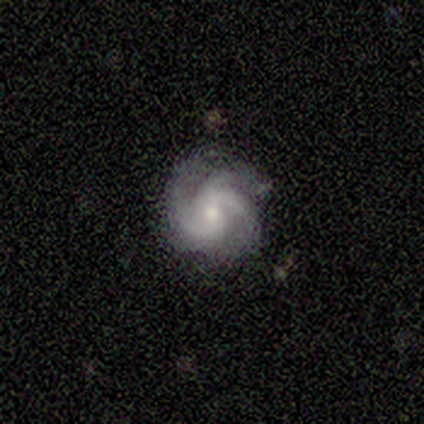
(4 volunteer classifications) featured or disk 100%, smooth 0%, star or artifact 0%. Down the decision tree: edge-on disk — no (100%); bar — weak (50%, tied with no); spiral arms — yes (100%); spiral arm count — 3 (75%); spiral winding — tight (50%, tied with medium); bulge size — small (50%); merging — none (100%).